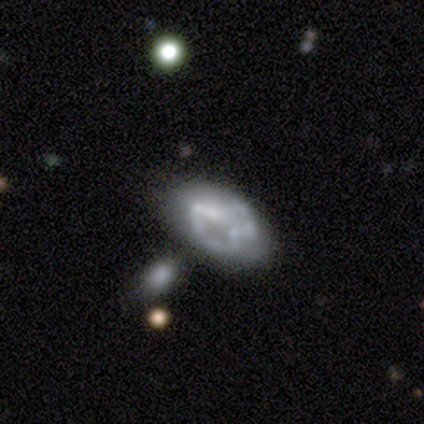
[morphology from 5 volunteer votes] This is likely a featured or disk galaxy (60%). It is clearly not viewed edge-on (100%). Bar: clearly no (100%). Spiral arm pattern: clearly no (100%). Central bulge: likely none (67%). Merging: possibly minor disturbance (50%, tied with merger).